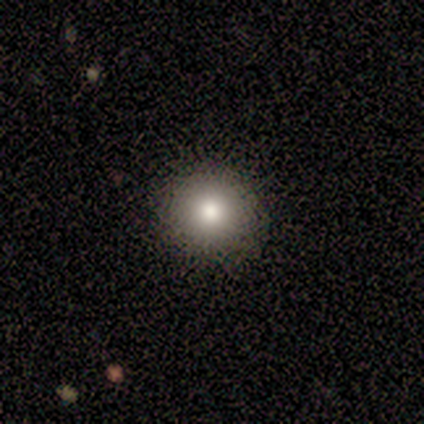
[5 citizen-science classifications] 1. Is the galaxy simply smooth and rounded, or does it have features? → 60% smooth, 20% featured or disk, 20% star or artifact.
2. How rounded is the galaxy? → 100% round, 0% in between, 0% cigar-shaped.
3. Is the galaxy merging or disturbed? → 100% none, 0% minor disturbance, 0% major disturbance, 0% merger.